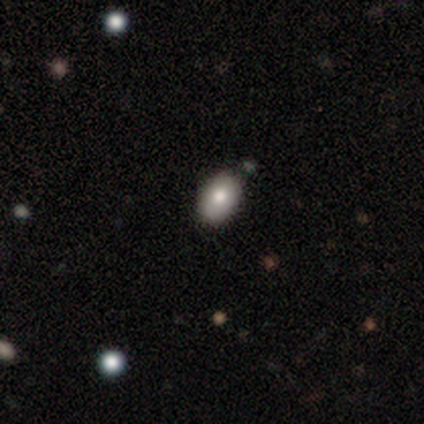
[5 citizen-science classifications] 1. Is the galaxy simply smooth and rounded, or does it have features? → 80% smooth, 20% star or artifact, 0% featured or disk.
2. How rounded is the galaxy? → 75% in between, 25% round, 0% cigar-shaped.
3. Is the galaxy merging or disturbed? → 75% minor disturbance, 25% none, 0% major disturbance, 0% merger.